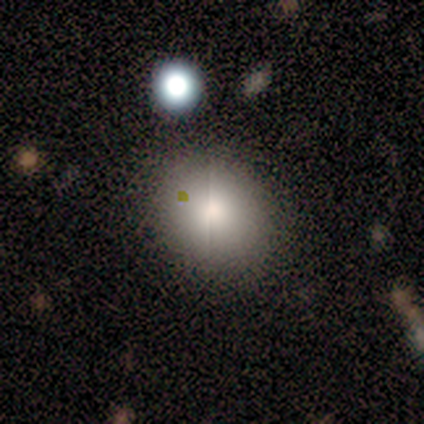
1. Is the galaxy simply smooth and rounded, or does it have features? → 100% smooth, 0% featured or disk, 0% star or artifact.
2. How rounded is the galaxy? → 60% round, 40% in between, 0% cigar-shaped.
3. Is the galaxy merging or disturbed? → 80% none, 20% minor disturbance, 0% major disturbance, 0% merger.